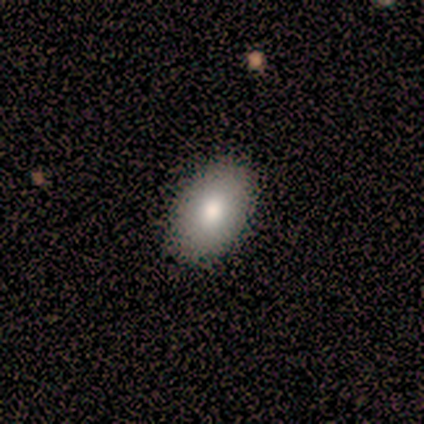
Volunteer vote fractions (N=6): Volunteers were most divided on "smooth or featured": smooth: 83%, featured or disk: 17%, star or artifact: 0%. More confident: how rounded — in between (100%); merging — none (83%).